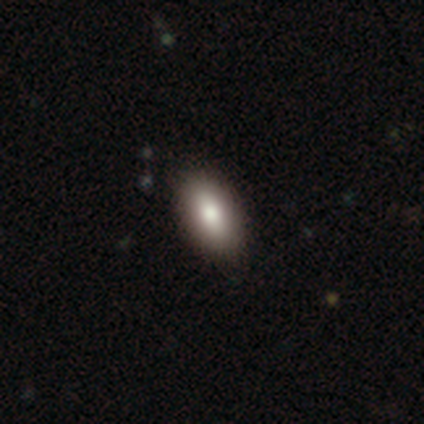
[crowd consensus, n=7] Q: Smooth or featured?
A: smooth (86%); runner-up: featured or disk (14%)
Q: How rounded?
A: in between (100%)
Q: Merging?
A: none (86%); runner-up: minor disturbance (14%)